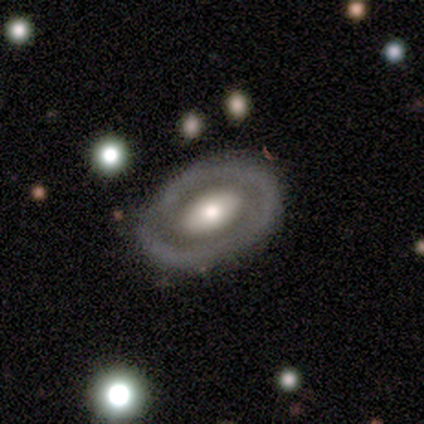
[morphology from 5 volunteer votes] Volunteers were most divided on "smooth or featured": smooth: 60%, featured or disk: 20%, star or artifact: 20%. More confident: how rounded — in between (100%); merging — none (100%).